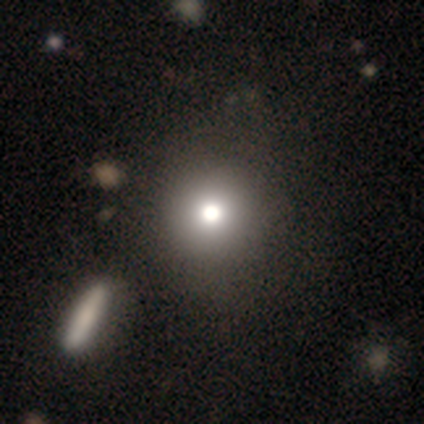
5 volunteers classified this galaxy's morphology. Q: Smooth or featured?
A: smooth (100%)
Q: How rounded?
A: round (80%); runner-up: in between (20%)
Q: Merging?
A: none (80%); runner-up: minor disturbance (20%)